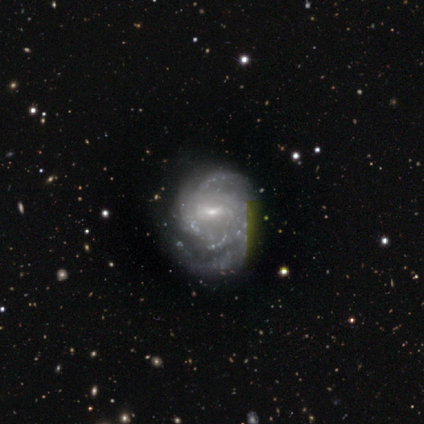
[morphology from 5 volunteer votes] Smooth or featured? featured or disk (100%)
Edge-on disk? no (100%)
Bar? weak (60%)
Spiral arms? yes (100%)
Spiral winding? tight (40%, tied with medium)
Spiral arm count? 3 (40%, tied with can't tell)
Bulge size? small (100%)
Merging? minor disturbance (80%)